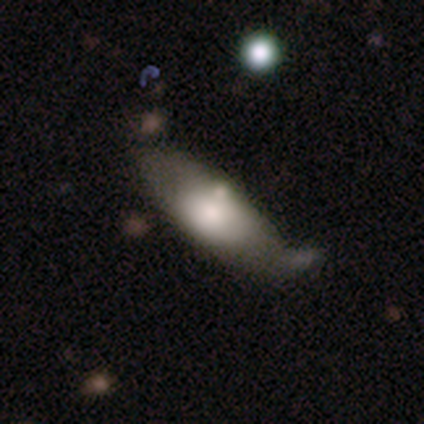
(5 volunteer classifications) A smooth galaxy with no disk features (80%) that is in between round and cigar-shaped (75%). Merging: none (60%).